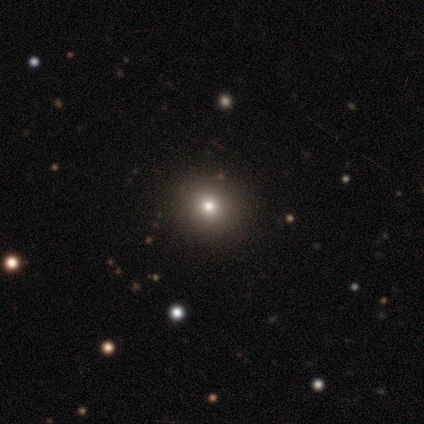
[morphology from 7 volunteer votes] Overall: smooth (57%; star or artifact 43%). How rounded: round (100%). Merging: none (75%).